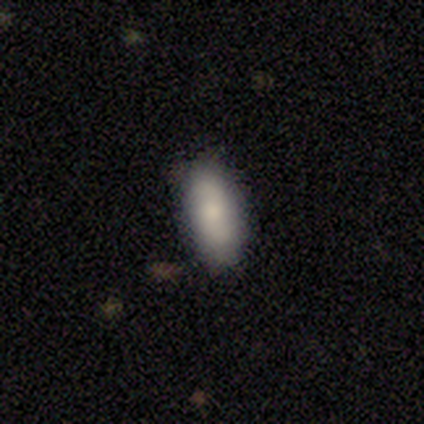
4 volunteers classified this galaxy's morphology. Smooth or featured: smooth — 75% (featured or disk — 25%)
How rounded: in between — 100%
Merging: none — 50% (tied with minor disturbance — 50%)